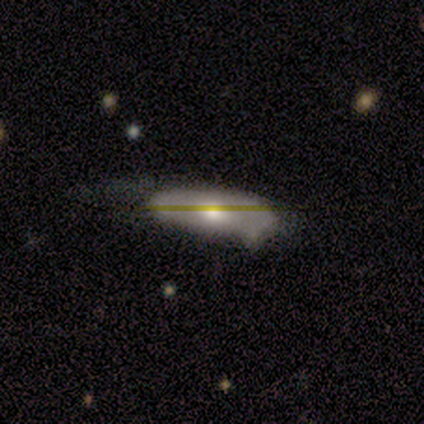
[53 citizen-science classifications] This appears to be a smooth galaxy with no disk features (47%) that is in between round and cigar-shaped (64%). Merging: minor disturbance (49%).